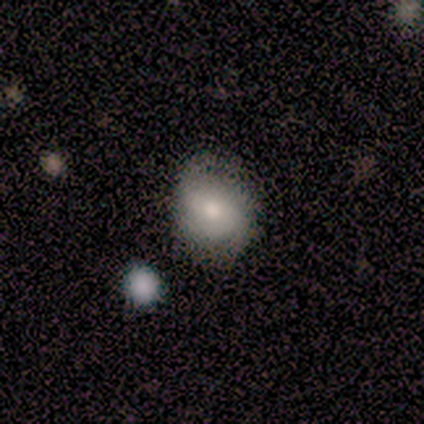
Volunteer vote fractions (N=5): Morphology: type=smooth (80%); roundness=round (100%); merging=none (60%).